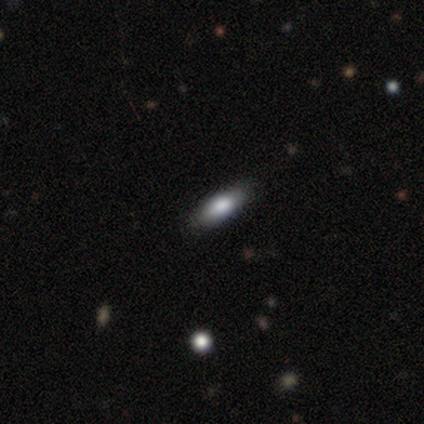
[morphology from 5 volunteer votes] Smooth or featured?
  - featured or disk: 60% *
  - smooth: 40%
  - star or artifact: 0%
Edge-on disk?
  - yes: 67% *
  - no: 33%
Edge-on bulge?
  - rounded: 100% *
  - boxy: 0%
  - none: 0%
Merging?
  - none: 100% *
  - minor disturbance: 0%
  - major disturbance: 0%
  - merger: 0%